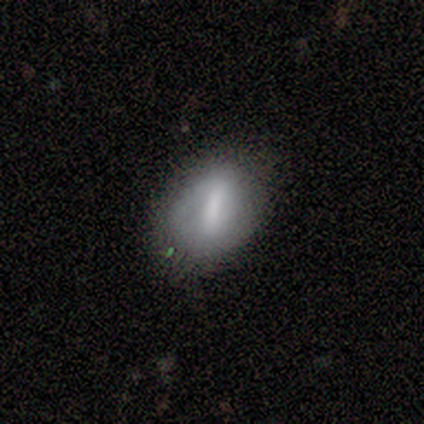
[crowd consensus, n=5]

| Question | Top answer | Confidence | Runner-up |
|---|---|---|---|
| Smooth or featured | smooth | 80% | featured or disk (20%) |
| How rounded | in between | 100% | — |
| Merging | none | 80% | minor disturbance (20%) |